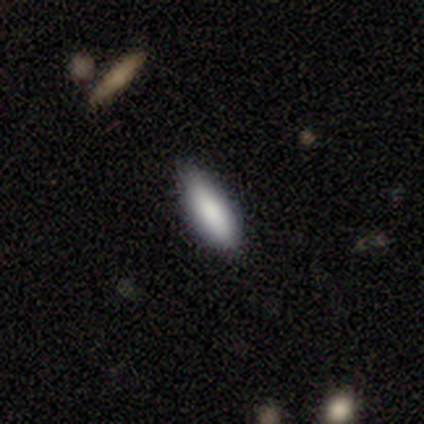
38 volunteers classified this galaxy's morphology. smooth_or_featured: smooth (p=0.79) [alt: featured or disk p=0.18]
how_rounded: in between (p=0.57) [alt: cigar-shaped p=0.40]
merging: none (p=0.78) [alt: minor disturbance p=0.19]